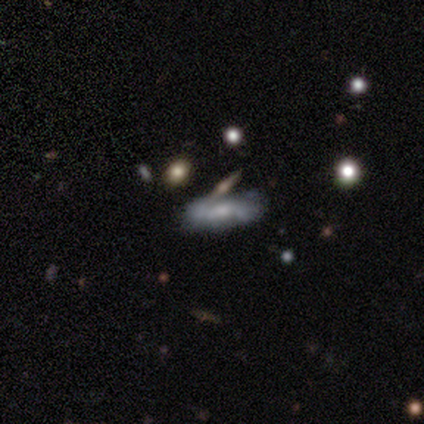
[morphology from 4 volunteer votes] Smooth or featured?
  - smooth: 50% * (tied)
  - featured or disk: 50% * (tied)
  - star or artifact: 0%
How rounded?
  - in between: 50% * (tied)
  - cigar-shaped: 50% * (tied)
  - round: 0%
Merging?
  - minor disturbance: 50% *
  - none: 25%
  - merger: 25%
  - major disturbance: 0%